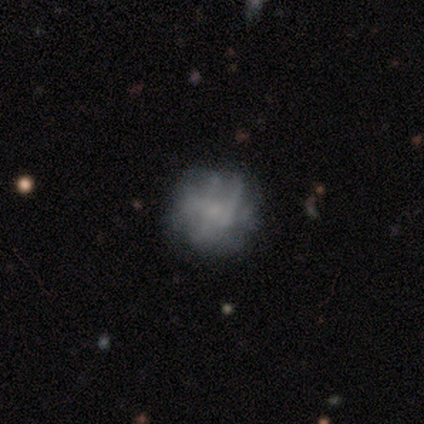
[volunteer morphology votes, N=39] Smooth or featured? 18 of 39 (46%) said smooth. How rounded? 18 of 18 (100%) said round. Merging? 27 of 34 (79%) said none.